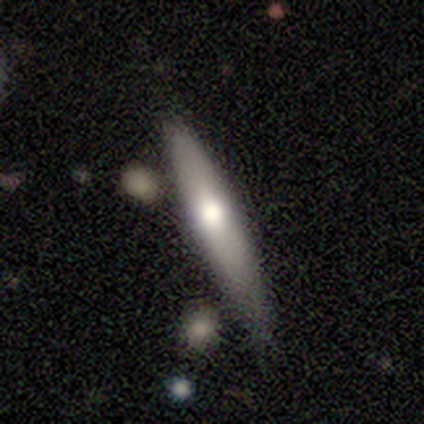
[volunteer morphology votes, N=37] Smooth or featured? 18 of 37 (49%, tied with featured or disk) said smooth. How rounded? 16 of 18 (89%) said cigar-shaped. Merging? 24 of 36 (67%) said none.